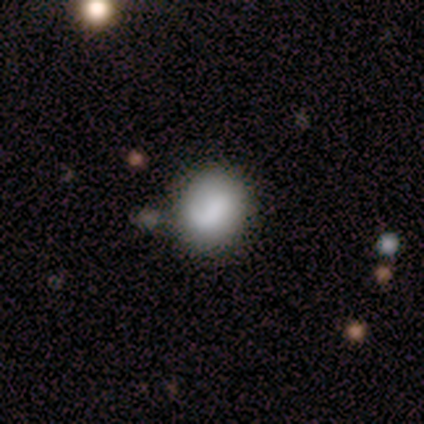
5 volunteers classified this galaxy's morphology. This is clearly a smooth galaxy (80%). How rounded: likely round (75%). Merging: likely none (60%).